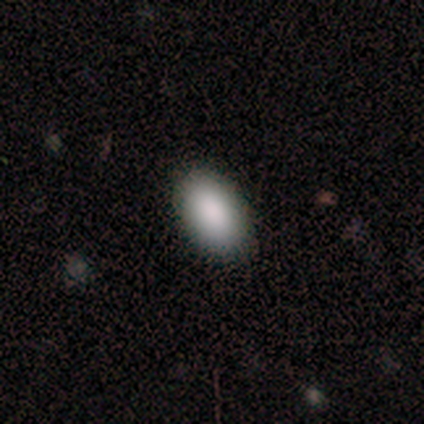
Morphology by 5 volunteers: smooth 100%, featured or disk 0%, star or artifact 0%. Down the decision tree: how rounded — in between (100%); merging — none (80%).